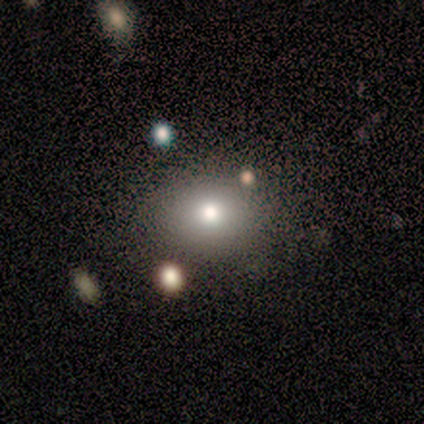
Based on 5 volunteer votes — smooth-or-featured: smooth: 80% | featured or disk: 20% | star or artifact: 0%
  how-rounded: round: 50% (tied) | in between: 50% (tied) | cigar-shaped: 0%
  merging: none: 80% | minor disturbance: 20% | major disturbance: 0% | merger: 0%